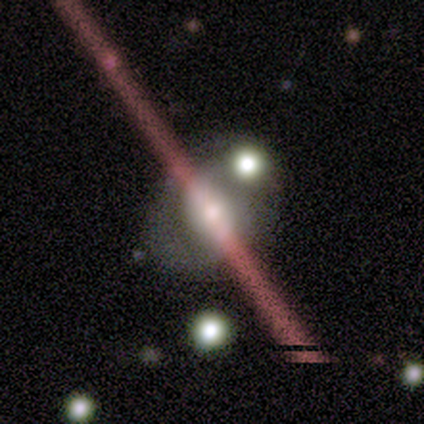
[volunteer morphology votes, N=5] Smooth or featured? 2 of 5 (40%, tied with featured or disk) said smooth. How rounded? 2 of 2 (100%) said in between. Merging? 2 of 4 (50%) said none.